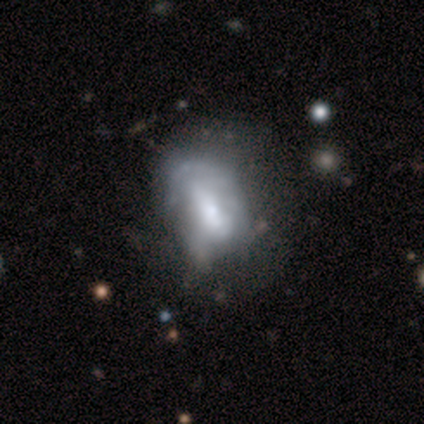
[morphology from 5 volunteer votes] smooth 60%, featured or disk 40%, star or artifact 0%. Down the decision tree: how rounded — in between (100%); merging — major disturbance (60%).